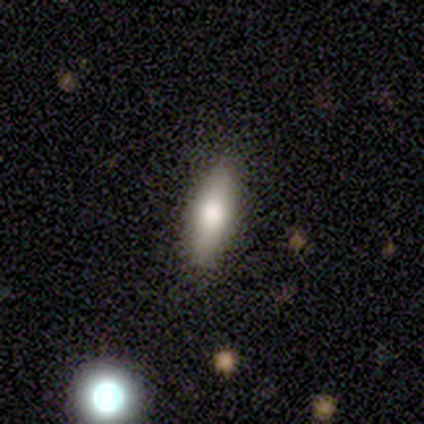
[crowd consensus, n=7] Q: Smooth or featured?
A: smooth (71%); runner-up: featured or disk (29%)
Q: How rounded?
A: in between (60%); runner-up: cigar-shaped (40%)
Q: Merging?
A: none (86%); runner-up: minor disturbance (14%)